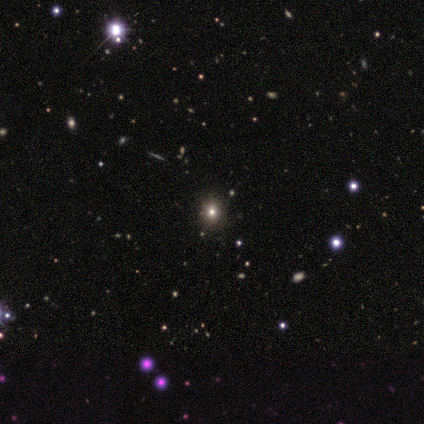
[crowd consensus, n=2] This is possibly a smooth galaxy (50%, tied with featured or disk). How rounded: clearly in between (100%). Merging: possibly none (50%, tied with minor disturbance).